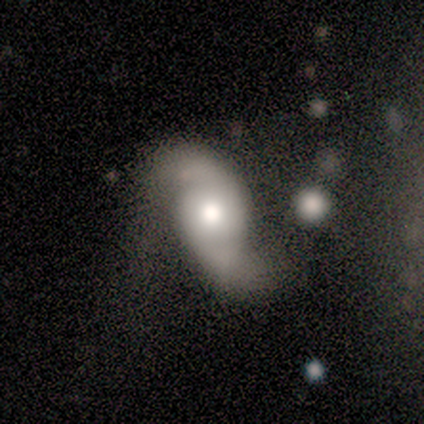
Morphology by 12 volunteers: type=featured or disk (100%); edge-on=no (100%); bar=no (83%); spiral arms=yes (100%); winding=loose (92%); arm count=2 (100%); bulge=large (50%); merging=none (42%, tied with major disturbance).